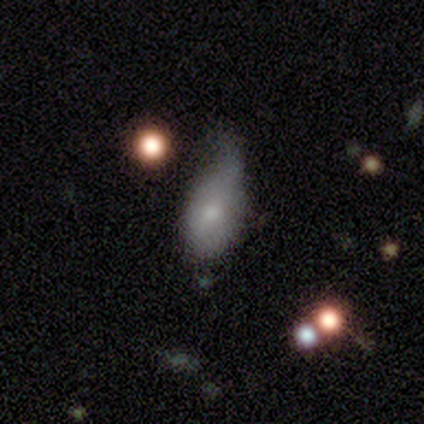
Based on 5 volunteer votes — A smooth galaxy with no disk features (100%) that is in between round and cigar-shaped (100%). Merging: minor disturbance (80%).